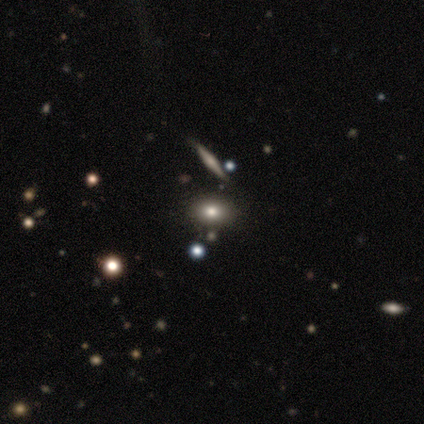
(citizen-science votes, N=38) Smooth or featured: smooth — 53% (featured or disk — 24%)
How rounded: in between — 80% (round — 15%)
Merging: none — 72% (merger — 14%)